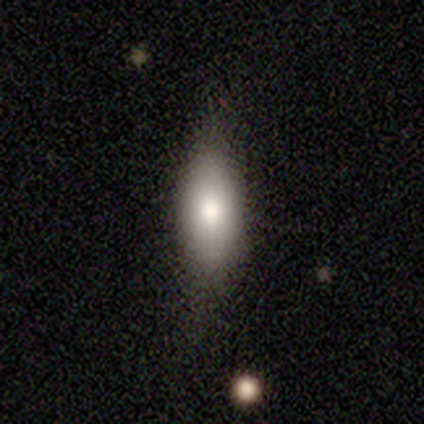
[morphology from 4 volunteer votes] Smooth or featured: smooth — 75% (star or artifact — 25%)
How rounded: cigar-shaped — 67% (in between — 33%)
Merging: minor disturbance — 67% (none — 33%)